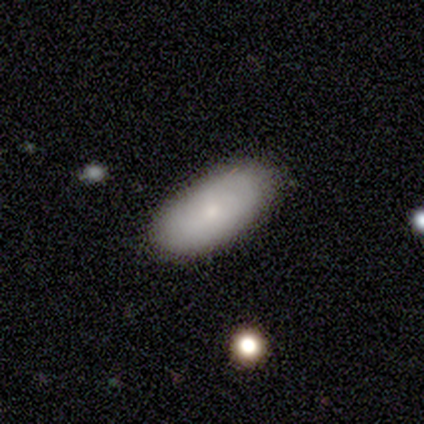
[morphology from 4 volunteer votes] Consensus on every question: smooth or featured — smooth (100%); how rounded — in between (100%); merging — none (100%).